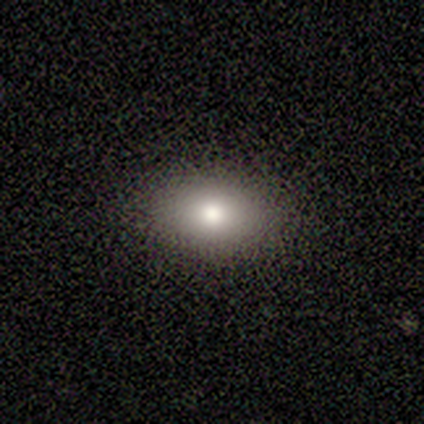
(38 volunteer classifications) smooth 76%, star or artifact 13%, featured or disk 11%. Down the decision tree: how rounded — in between (76%); merging — none (94%).